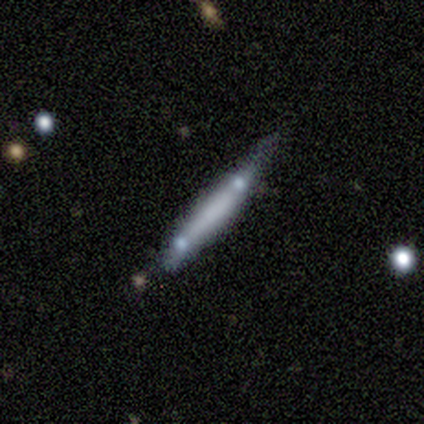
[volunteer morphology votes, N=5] Q: Smooth or featured?
A: featured or disk (60%); runner-up: smooth (40%)
Q: Edge-on disk?
A: yes (100%)
Q: Edge-on bulge?
A: rounded (67%); runner-up: none (33%)
Q: Merging?
A: minor disturbance (40%); tied with: merger (40%)